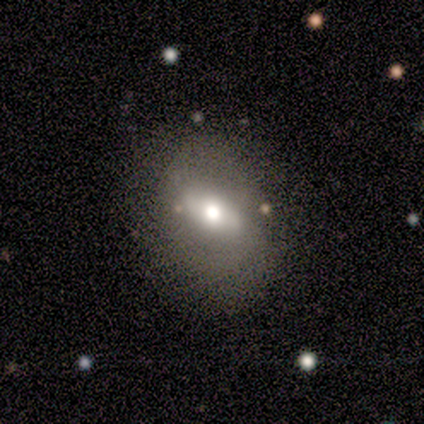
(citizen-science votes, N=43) A featured or disk galaxy (51%) with a weak bar (45%), no spiral arms (75%) and a moderate central bulge (70%). Merging: none (83%).